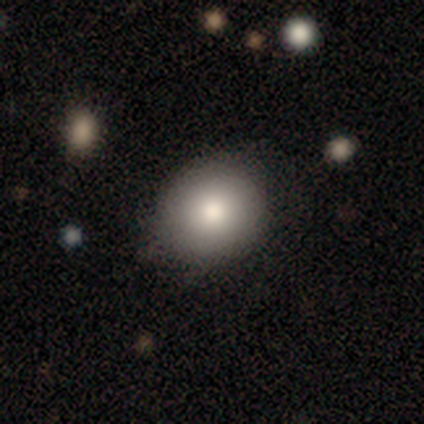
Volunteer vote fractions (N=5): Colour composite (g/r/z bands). It shows a smooth galaxy with no disk features (100%) that is in between round and cigar-shaped (60%). Merging: none (100%).